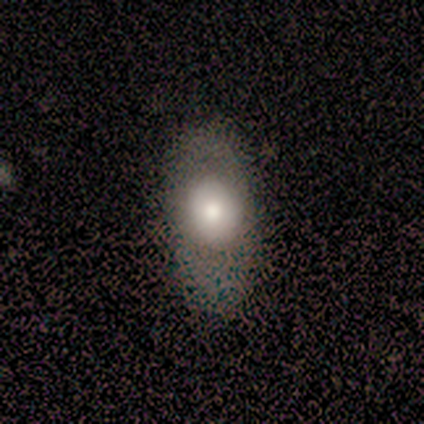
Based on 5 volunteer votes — This appears to be a smooth galaxy with no disk features (60%) that is in between round and cigar-shaped (67%). Merging: none (75%).